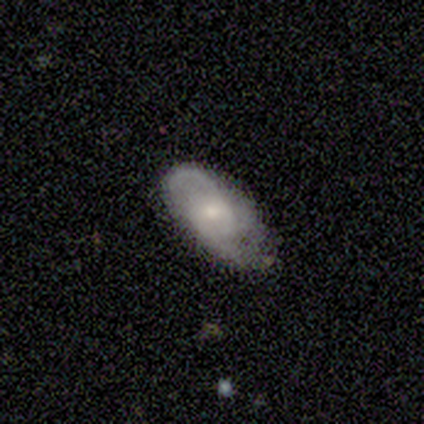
Smooth or featured? 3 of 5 (60%) said featured or disk. Edge-on disk? 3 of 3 (100%) said no. Bar? 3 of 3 (100%) said weak. Spiral arms? 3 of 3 (100%) said yes. Spiral winding? 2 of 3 (67%) said loose. Spiral arm count? 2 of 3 (67%) said 2. Bulge size? 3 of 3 (100%) said moderate. Merging? 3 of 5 (60%) said none.